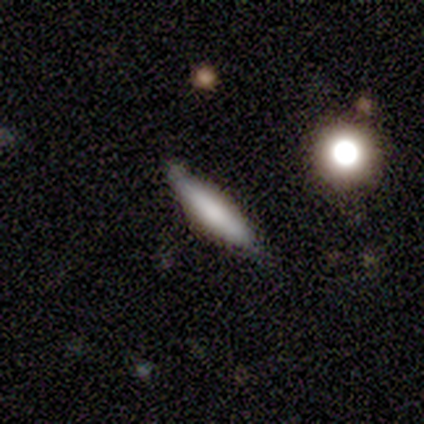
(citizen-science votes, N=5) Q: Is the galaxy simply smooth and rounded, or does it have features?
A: smooth — 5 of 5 (100%).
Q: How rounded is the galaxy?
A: cigar-shaped — 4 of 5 (80%).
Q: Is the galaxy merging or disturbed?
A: none — 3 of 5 (60%).